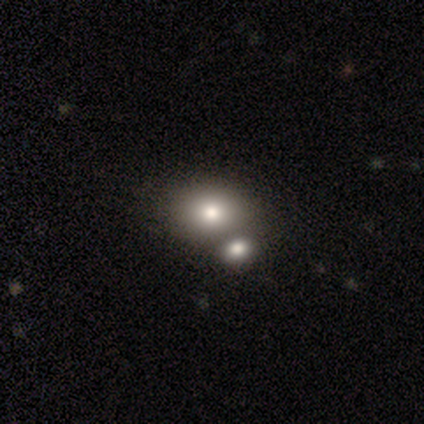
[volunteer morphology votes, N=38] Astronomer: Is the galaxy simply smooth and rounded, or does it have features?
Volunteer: smooth — 66%.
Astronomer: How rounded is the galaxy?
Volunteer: round — 52% (runner-up: in between, 48%).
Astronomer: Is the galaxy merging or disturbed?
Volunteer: none — 43% (runner-up: merger, 40%).